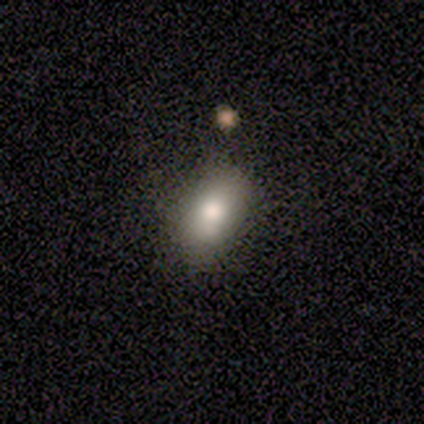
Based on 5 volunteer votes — Smooth or featured? 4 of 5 (80%) said smooth. How rounded? 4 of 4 (100%) said in between. Merging? 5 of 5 (100%) said none.